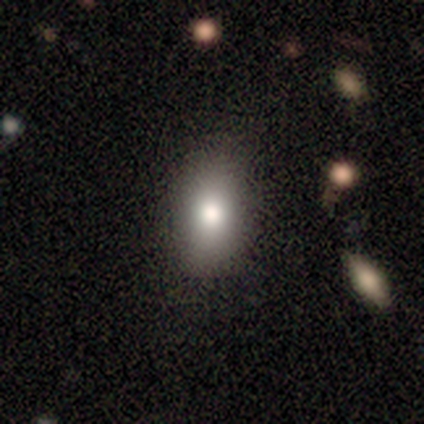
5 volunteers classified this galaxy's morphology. A smooth galaxy with no disk features (80%) that is in between round and cigar-shaped (100%).

Vote fractions:
- Smooth or featured? smooth: 80% / featured or disk: 20% / star or artifact: 0%
- How rounded? in between: 100% / round: 0% / cigar-shaped: 0%
- Merging? none: 80% / minor disturbance: 20% / major disturbance: 0% / merger: 0%